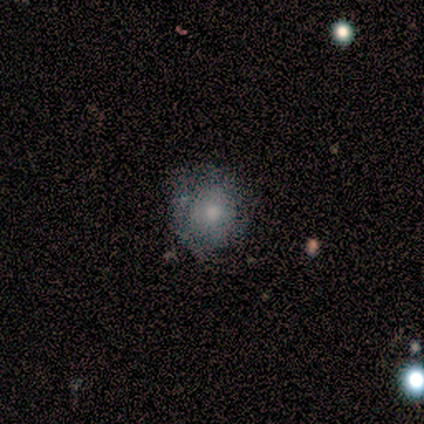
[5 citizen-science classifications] A smooth galaxy with no disk features (60%) that is round (100%). Merging: minor disturbance (80%).